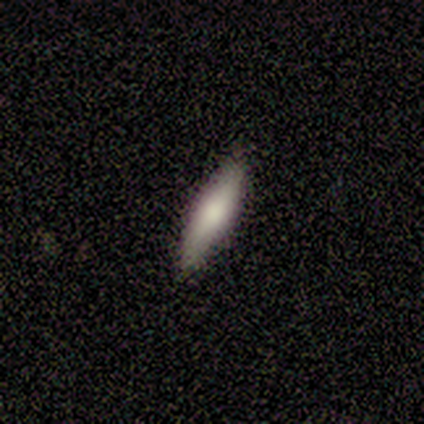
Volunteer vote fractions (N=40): Overall: smooth (68%; featured or disk 32%). How rounded: cigar-shaped (67%; in between 33%). Merging: none (92%).